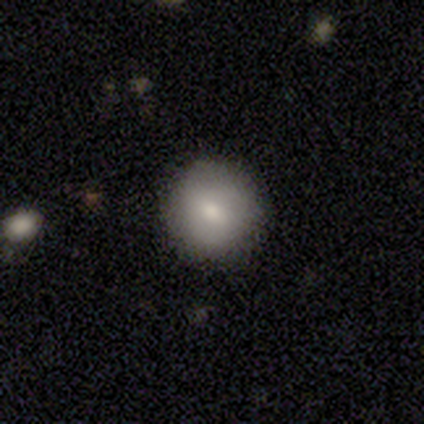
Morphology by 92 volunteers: A smooth galaxy with no disk features (83%) that is round (87%). Merging: none (81%).